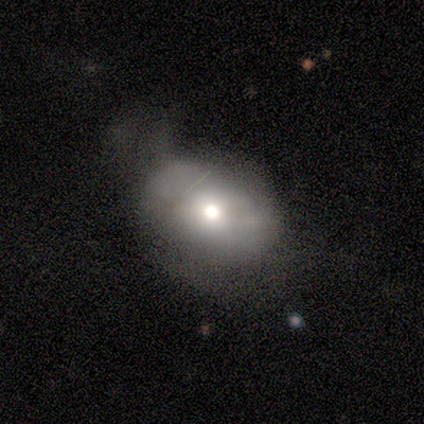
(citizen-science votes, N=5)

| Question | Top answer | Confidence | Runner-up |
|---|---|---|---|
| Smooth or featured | smooth | 80% | featured or disk (20%) |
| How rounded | round | 50% | tied: in between (50%) |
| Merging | minor disturbance | 60% | none (20%) |